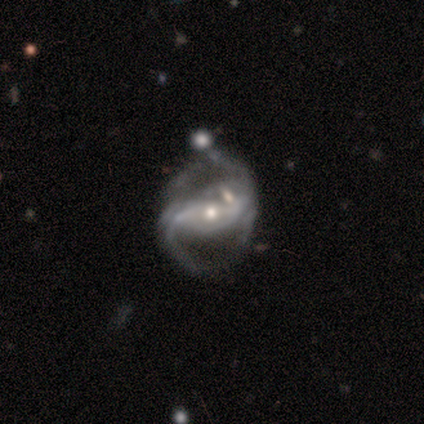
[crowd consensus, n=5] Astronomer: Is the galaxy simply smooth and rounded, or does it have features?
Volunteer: featured or disk — 100%.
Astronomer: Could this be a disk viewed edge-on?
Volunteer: no — 100%.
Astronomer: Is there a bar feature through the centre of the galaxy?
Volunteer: strong — 60% (runner-up: weak, 40%).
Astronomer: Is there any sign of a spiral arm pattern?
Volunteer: yes — 100%.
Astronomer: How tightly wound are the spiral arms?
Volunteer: loose — 60% (runner-up: medium, 40%).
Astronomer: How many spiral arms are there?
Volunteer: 2 — 60%.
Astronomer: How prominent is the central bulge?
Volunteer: moderate — 60% (runner-up: small, 40%).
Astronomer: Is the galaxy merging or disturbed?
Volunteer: none — 40% (runner-up: minor disturbance, 20%).